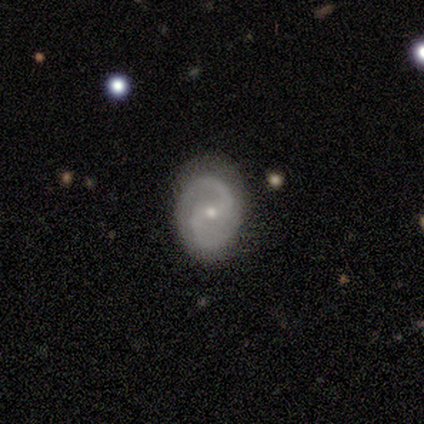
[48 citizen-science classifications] A featured or disk galaxy (85%) with a weak bar (54%), 2 (100%) medium (57%) spiral arms (98%) and a small central bulge (59%). Merging: none (67%).